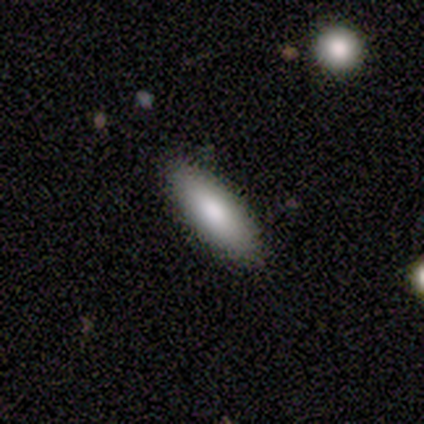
This appears to be a smooth galaxy with no disk features (100%) that is cigar-shaped (60%). Merging: none (80%).